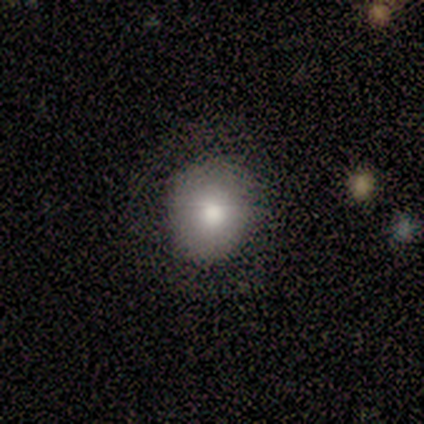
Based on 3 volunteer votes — A smooth galaxy with no disk features (67%) that is round (100%). Merging: none (100%).